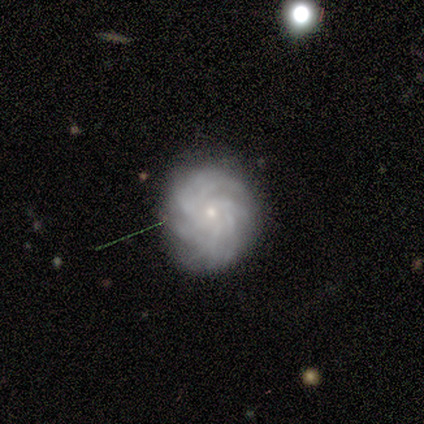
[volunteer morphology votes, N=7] A featured or disk galaxy (71%) with no bar (100%), more than 4 (50%) tight (100%) spiral arms (80%) and a small central bulge (100%). Merging: none (50%).